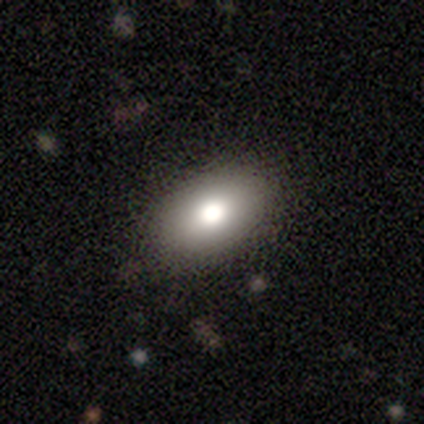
Morphology: type=smooth (77%); roundness=in between (97%); merging=none (78%).